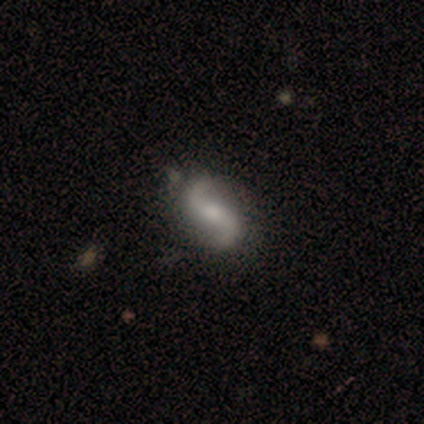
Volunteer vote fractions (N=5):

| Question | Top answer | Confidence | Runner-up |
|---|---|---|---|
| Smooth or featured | featured or disk | 80% | smooth (20%) |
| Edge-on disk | no | 100% | — |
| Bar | no | 75% | strong (25%) |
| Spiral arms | yes | 100% | — |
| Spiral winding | loose | 50% | tight (25%) |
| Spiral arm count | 2 | 100% | — |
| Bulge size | moderate | 100% | — |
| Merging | none | 60% | minor disturbance (40%) |